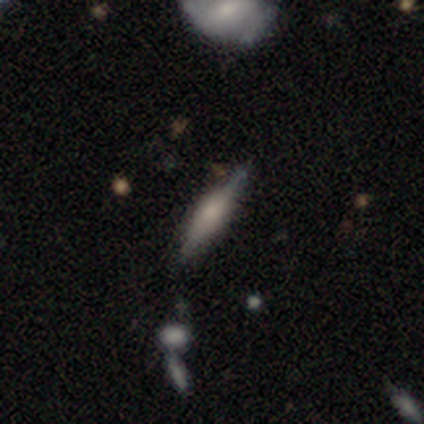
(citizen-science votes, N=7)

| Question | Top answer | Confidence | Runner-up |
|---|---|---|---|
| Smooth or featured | featured or disk | 57% | smooth (43%) |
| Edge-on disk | yes | 100% | — |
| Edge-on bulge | rounded | 100% | — |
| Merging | none | 86% | minor disturbance (14%) |